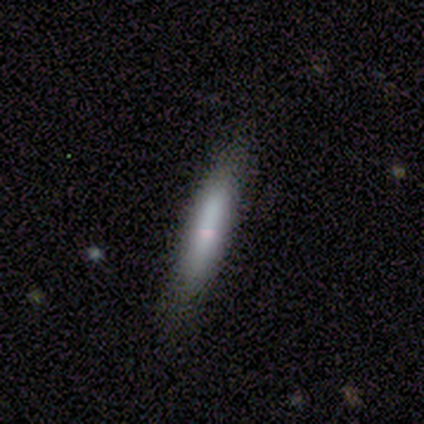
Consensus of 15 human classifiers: Volunteers were most divided on "merging": none: 73%, minor disturbance: 20%, merger: 7%, major disturbance: 0%. More confident: smooth or featured — smooth (87%); how rounded — cigar-shaped (77%).